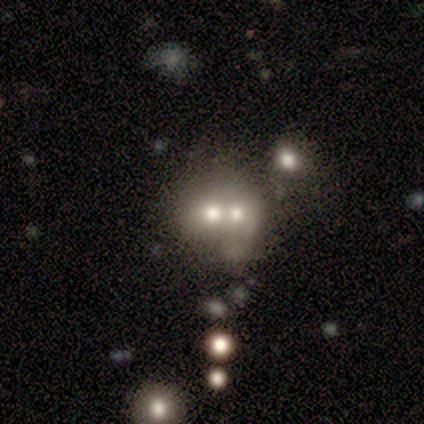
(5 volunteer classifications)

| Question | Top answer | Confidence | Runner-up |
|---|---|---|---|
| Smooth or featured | featured or disk | 80% | smooth (20%) |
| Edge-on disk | no | 100% | — |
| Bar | no | 100% | — |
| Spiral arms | no | 75% | yes (25%) |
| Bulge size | dominant | 50% | tied: moderate (50%) |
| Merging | merger | 100% | — |